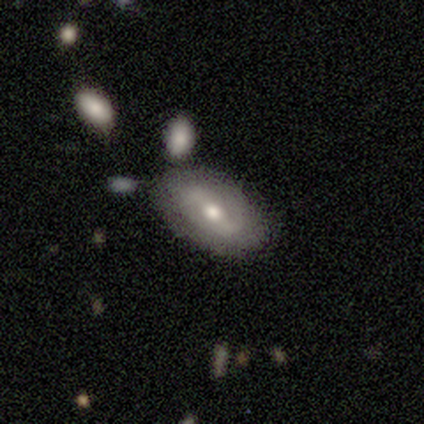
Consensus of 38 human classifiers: Morphology: type=featured or disk (61%); edge-on=no (96%); bar=weak (36%); spiral arms=yes (68%); winding=loose (40%); arm count=2 (87%); bulge=moderate (68%); merging=none (78%).